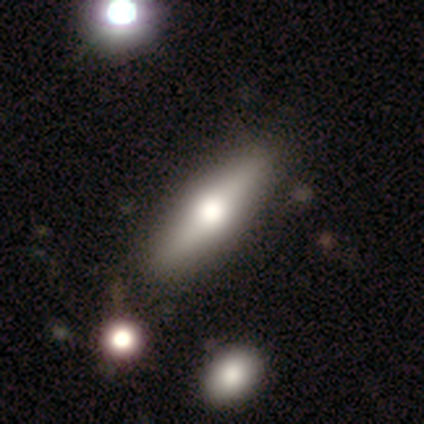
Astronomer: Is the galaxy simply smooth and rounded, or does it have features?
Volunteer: featured or disk — 64%.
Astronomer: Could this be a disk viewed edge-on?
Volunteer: yes — 71%.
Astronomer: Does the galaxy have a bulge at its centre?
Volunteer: rounded — 80%.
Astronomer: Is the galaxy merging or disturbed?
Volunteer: none — 91%.